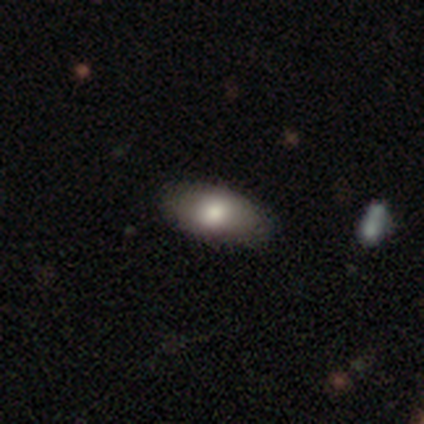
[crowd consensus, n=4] Volunteers were most divided on "smooth or featured": smooth: 75%, featured or disk: 25%, star or artifact: 0%. More confident: how rounded — in between (100%); merging — none (75%).